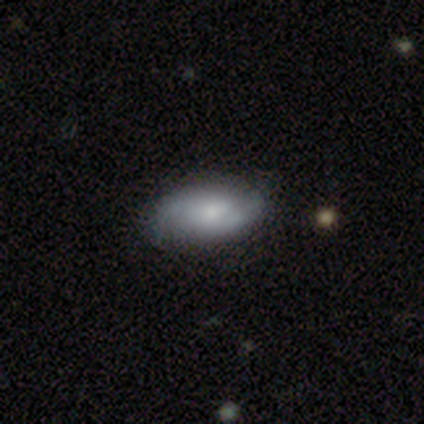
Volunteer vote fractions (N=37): This is possibly a featured or disk galaxy (57%). It is clearly not viewed edge-on (100%). Bar: likely no (62%). Spiral arm pattern: clearly yes (86%). Spiral arm count: clearly 2 (94%). Spiral winding: marginally medium (44%). Central bulge: possibly moderate (57%). Merging: possibly none (49%).